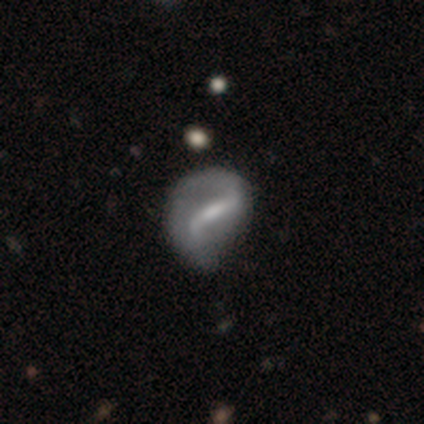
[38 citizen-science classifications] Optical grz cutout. It shows a featured or disk galaxy (89%) with a strong bar (69%), 2 (86%) loose (69%) spiral arms (91%) and a moderate central bulge (50%). Merging: minor disturbance (46%).